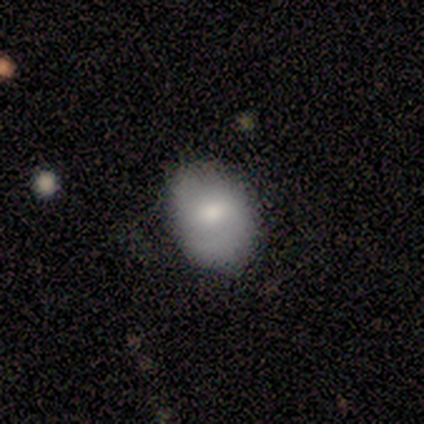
Q: Smooth or featured?
A: featured or disk (50%); runner-up: smooth (25%)
Q: Edge-on disk?
A: no (100%)
Q: Bar?
A: no (100%)
Q: Spiral arms?
A: yes (50%); tied with: no (50%)
Q: Spiral winding?
A: medium (100%)
Q: Spiral arm count?
A: 1 (100%)
Q: Bulge size?
A: moderate (100%)
Q: Merging?
A: none (33%); tied with: minor disturbance (33%); major disturbance (33%)